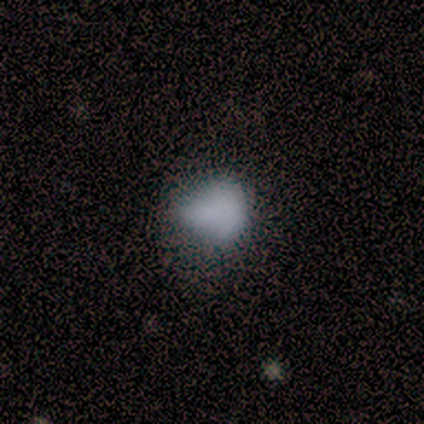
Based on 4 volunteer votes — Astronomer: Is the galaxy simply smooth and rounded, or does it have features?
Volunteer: smooth — 75%.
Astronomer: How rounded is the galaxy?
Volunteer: round — 67%.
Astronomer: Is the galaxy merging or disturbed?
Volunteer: minor disturbance — 50%.